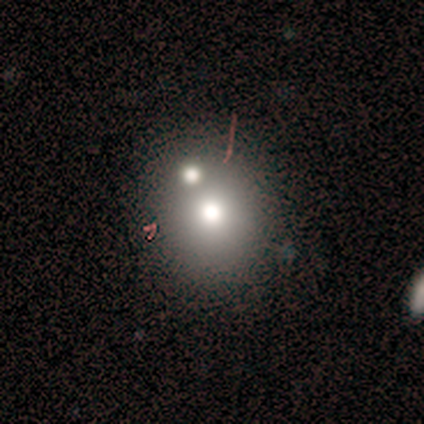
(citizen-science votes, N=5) This is clearly a smooth galaxy (100%). How rounded: clearly round (100%). Merging: likely none (60%).